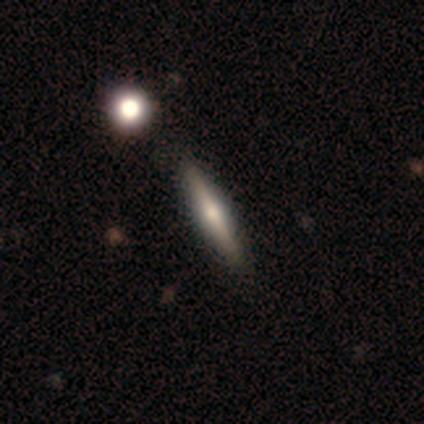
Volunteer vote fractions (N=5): Smooth or featured: featured or disk — 60% (smooth — 40%)
Edge-on disk: yes — 100%
Edge-on bulge: rounded — 67% (boxy — 33%)
Merging: none — 80% (minor disturbance — 20%)